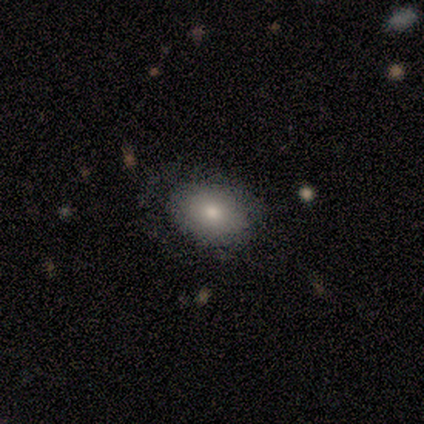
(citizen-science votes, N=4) Morphology: type=smooth (75%); roundness=in between (100%); merging=none (50%).